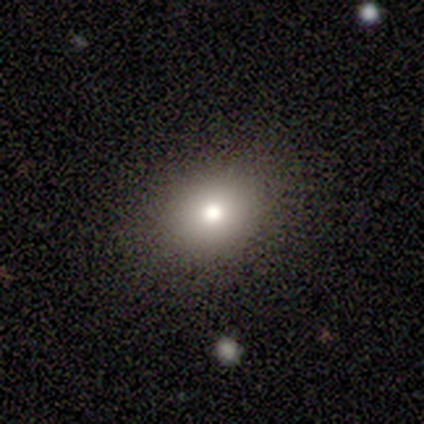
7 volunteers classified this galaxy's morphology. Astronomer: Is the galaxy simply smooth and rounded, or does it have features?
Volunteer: smooth — 57%.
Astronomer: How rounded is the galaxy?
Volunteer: round — 50%, tied with in between at 50%.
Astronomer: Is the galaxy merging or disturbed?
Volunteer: none — 83%.